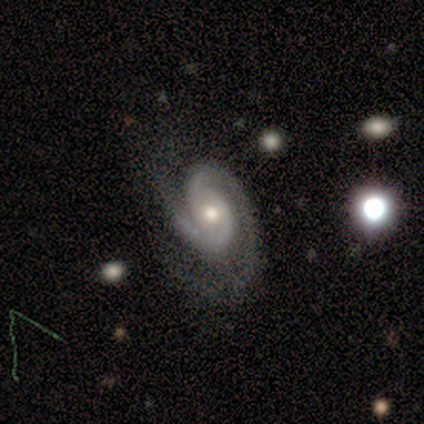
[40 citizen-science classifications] A featured or disk galaxy (88%) with no bar (62%), 2 (97%) tight (61%) spiral arms (97%) and a moderate central bulge (74%). Merging: none (59%).